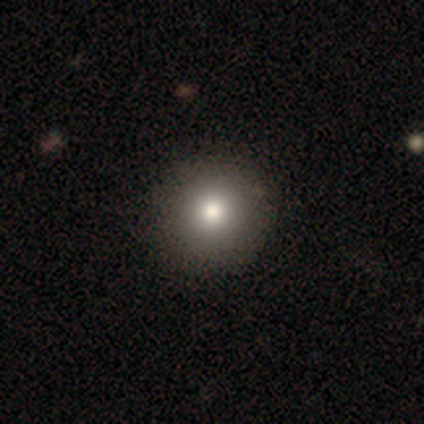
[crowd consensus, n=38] A smooth galaxy with no disk features (82%) that is round (94%).

Vote fractions:
- Smooth or featured? smooth: 82% / featured or disk: 11% / star or artifact: 8%
- How rounded? round: 94% / in between: 6% / cigar-shaped: 0%
- Merging? none: 54% / major disturbance: 3% / merger: 3% / minor disturbance: 0%